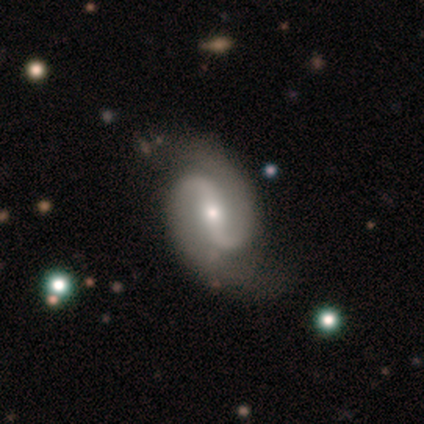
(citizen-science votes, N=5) Smooth or featured? featured or disk (100%)
Edge-on disk? no (100%)
Bar? no (60%)
Spiral arms? yes (100%)
Spiral winding? tight (80%)
Spiral arm count? 2 (100%)
Bulge size? moderate (60%)
Merging? none (80%)